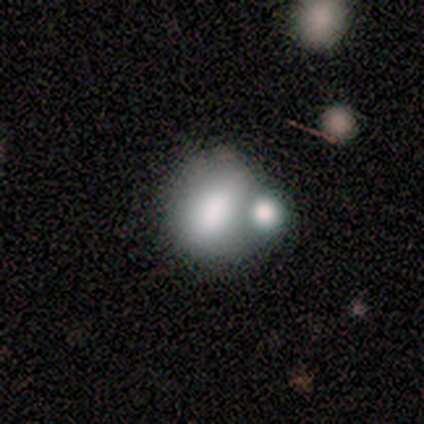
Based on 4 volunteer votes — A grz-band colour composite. It shows a smooth galaxy with no disk features (75%) that is round (100%). Merging: none (67%).